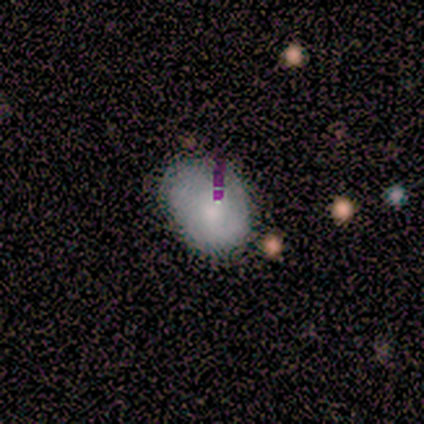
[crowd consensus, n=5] smooth_or_featured: smooth (p=0.60) [alt: featured or disk p=0.40]
how_rounded: in between (p=1.00)
merging: none (p=0.80) [alt: minor disturbance p=0.20]